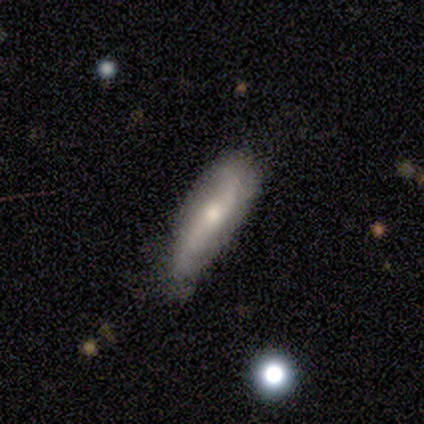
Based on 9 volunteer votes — Volunteers were most divided on "bulge size" (2-way tie): moderate: 50%, small: 50%, dominant: 0%, large: 0%, none: 0%. More confident: edge-on disk — no (100%); spiral arms — yes (83%); spiral winding — loose (80%); smooth or featured — featured or disk (67%); bar — no (67%); spiral arm count — 2 (60%); merging — none (56%).